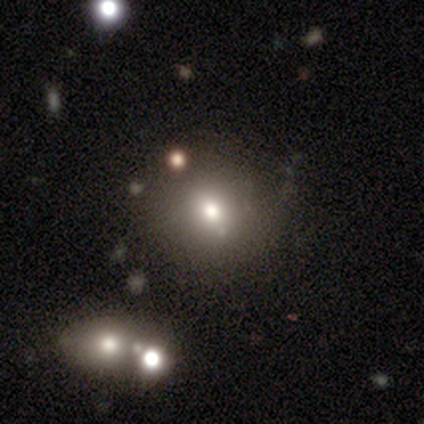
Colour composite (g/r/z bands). It shows a smooth galaxy with no disk features (50%) that is in between round and cigar-shaped (100%). Merging: none (33%, tied with major disturbance and merger).